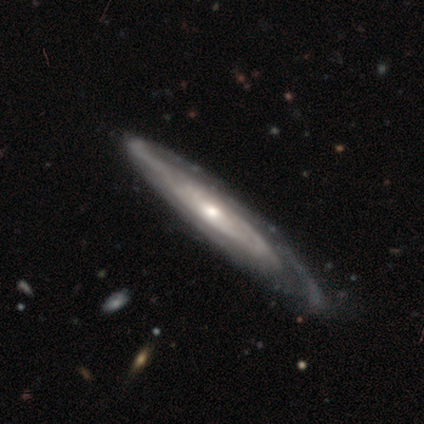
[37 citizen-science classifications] Smooth or featured?
  - featured or disk: 89% *
  - smooth: 8%
  - star or artifact: 3%
Edge-on disk?
  - no: 58% *
  - yes: 42%
Bar?
  - no: 68% *
  - weak: 26%
  - strong: 5%
Spiral arms?
  - yes: 89% *
  - no: 11%
Spiral winding?
  - tight: 71% *
  - loose: 18%
  - medium: 12%
Spiral arm count?
  - can't tell: 65% *
  - 1: 12%
  - 2: 12%
  - 3: 6%
  - 4: 6%
  - more than 4: 0%
Bulge size?
  - small: 47% *
  - moderate: 37%
  - large: 11%
  - dominant: 5%
  - none: 0%
Merging?
  - none: 64% *
  - minor disturbance: 22%
  - major disturbance: 11%
  - merger: 3%